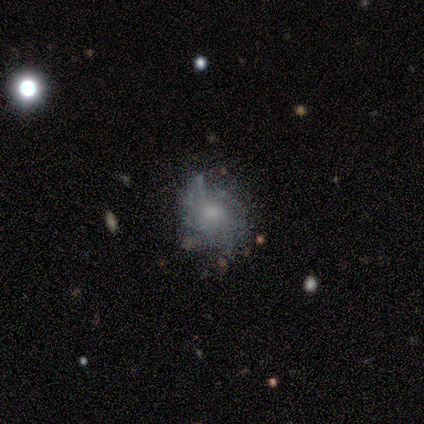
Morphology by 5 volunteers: This appears to be a featured or disk galaxy (100%) with no bar (100%), 3 (50%) medium (50%) spiral arms (80%) and a small central bulge (60%). Merging: none (60%).